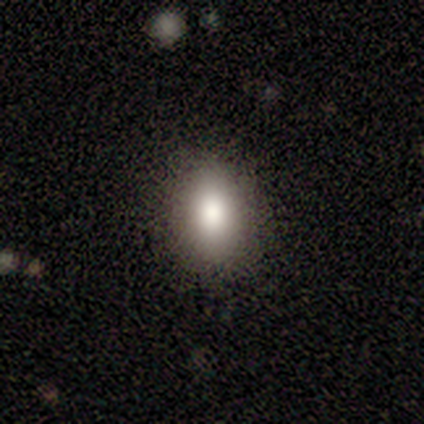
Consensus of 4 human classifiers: smooth_or_featured: smooth (p=1.00)
how_rounded: round (p=0.50) [tied with: in between p=0.50]
merging: none (p=1.00)